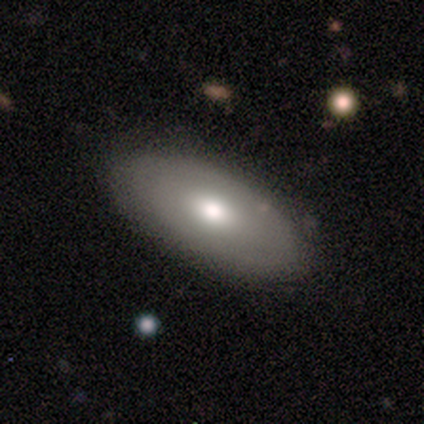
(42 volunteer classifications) Morphology: type=smooth (62%); roundness=in between (88%); merging=none (55%).